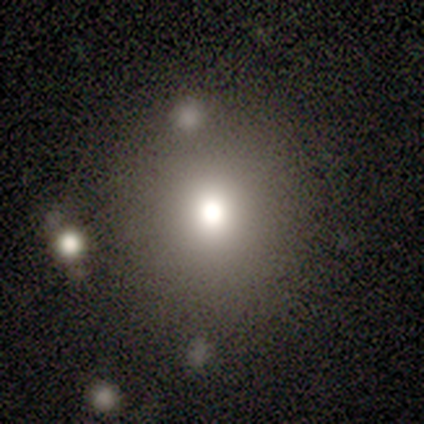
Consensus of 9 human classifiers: Smooth or featured: smooth — 44% (star or artifact — 33%)
How rounded: round — 100%
Merging: none — 83% (major disturbance — 17%)